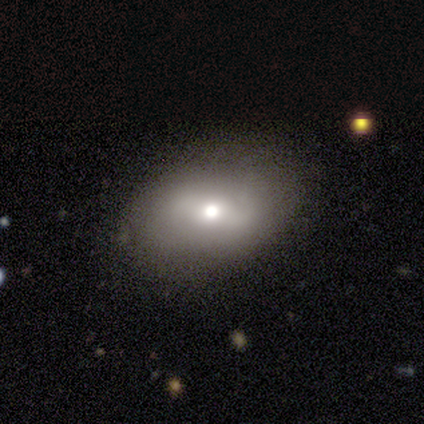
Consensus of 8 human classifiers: Q: Smooth or featured?
A: smooth (62%); runner-up: star or artifact (25%)
Q: How rounded?
A: in between (100%)
Q: Merging?
A: none (83%); runner-up: merger (17%)